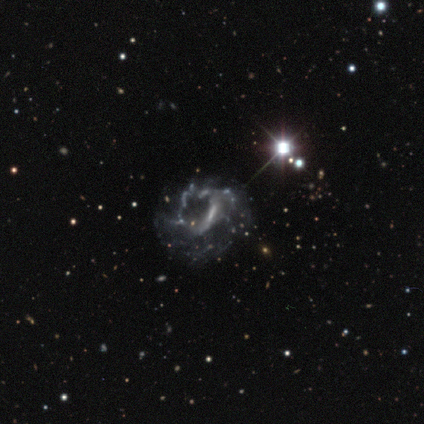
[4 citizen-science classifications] Smooth or featured?
  - featured or disk: 75% *
  - star or artifact: 25%
  - smooth: 0%
Edge-on disk?
  - no: 100% *
  - yes: 0%
Bar?
  - no: 100% *
  - strong: 0%
  - weak: 0%
Spiral arms?
  - no: 100% *
  - yes: 0%
Bulge size?
  - none: 100% *
  - dominant: 0%
  - large: 0%
  - moderate: 0%
  - small: 0%
Merging?
  - major disturbance: 67% *
  - none: 33%
  - minor disturbance: 0%
  - merger: 0%